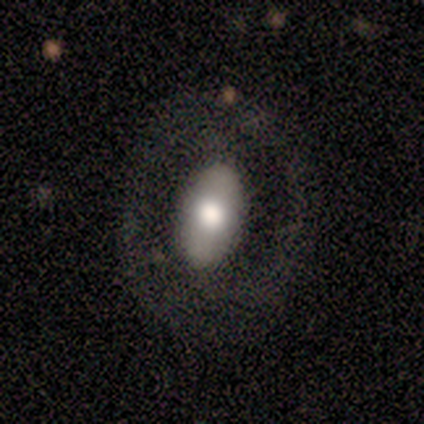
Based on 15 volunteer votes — Smooth or featured? 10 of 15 (67%) said smooth. How rounded? 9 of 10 (90%) said in between. Merging? 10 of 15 (67%) said none.